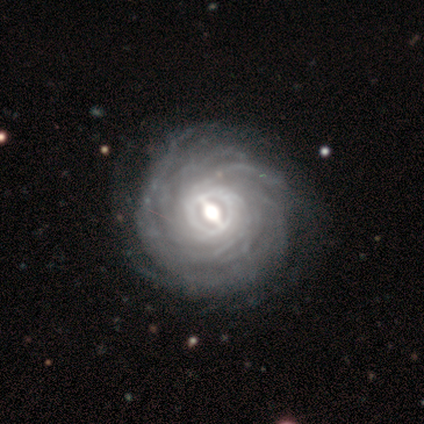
smooth_or_featured: featured or disk (p=0.92) [alt: smooth p=0.04]
disk_edge_on: no (p=1.00)
bar: strong (p=0.60) [alt: weak p=0.33]
has_spiral_arms: yes (p=0.96) [alt: no p=0.04]
spiral_winding: tight (p=0.83) [alt: medium p=0.15]
spiral_arm_count: more than 4 (p=0.50) [alt: can't tell p=0.24]
bulge_size: moderate (p=0.71) [alt: large p=0.19]
merging: none (p=0.92) [alt: major disturbance p=0.04]